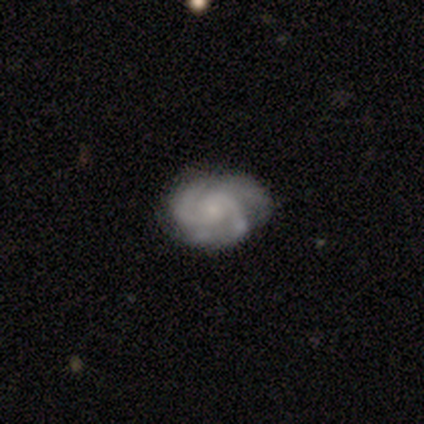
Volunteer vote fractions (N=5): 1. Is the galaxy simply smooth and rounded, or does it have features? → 40% smooth (tied), 40% featured or disk (tied), 20% star or artifact.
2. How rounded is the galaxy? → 100% in between, 0% round, 0% cigar-shaped.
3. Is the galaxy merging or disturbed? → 75% minor disturbance, 25% none, 0% major disturbance, 0% merger.